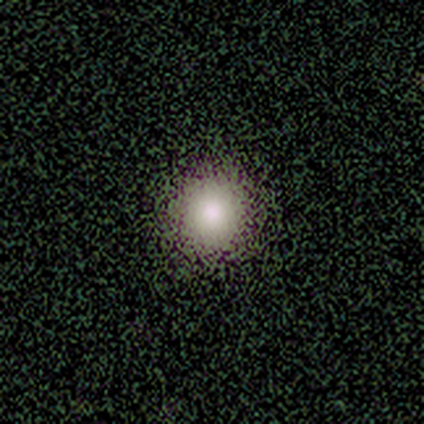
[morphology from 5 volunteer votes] A smooth galaxy with no disk features (80%) that is round (100%). Merging: none (100%).